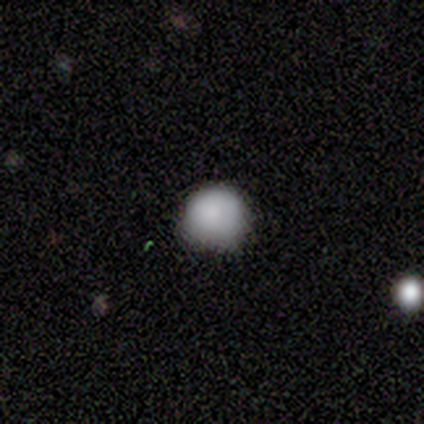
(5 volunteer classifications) Overall: smooth (100%). How rounded: round (100%). Merging: none (60%; minor disturbance 40%).